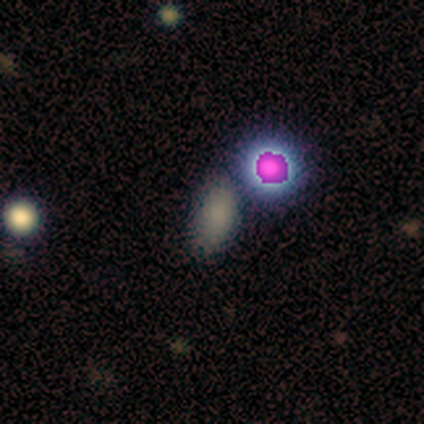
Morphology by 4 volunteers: smooth-or-featured: smooth: 75% | star or artifact: 25% | featured or disk: 0%
  how-rounded: in between: 67% | cigar-shaped: 33% | round: 0%
  merging: none: 67% | minor disturbance: 33% | major disturbance: 0% | merger: 0%